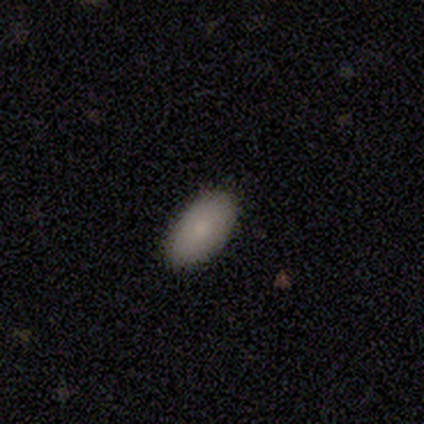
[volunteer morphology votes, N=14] This is likely a smooth galaxy (79%). How rounded: clearly in between (100%). Merging: clearly none (100%).